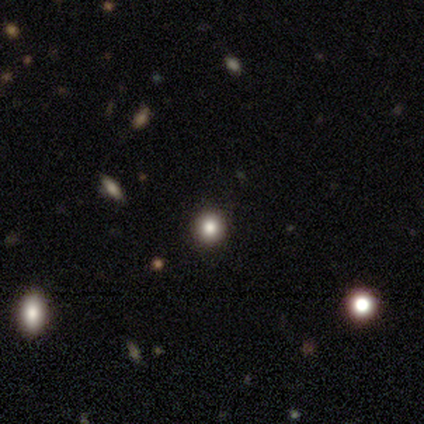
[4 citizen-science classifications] smooth_or_featured: smooth (p=1.00)
how_rounded: round (p=1.00)
merging: none (p=1.00)